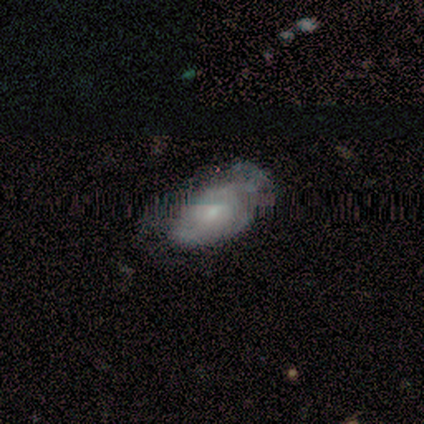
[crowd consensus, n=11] Smooth or featured?
  - featured or disk: 64% *
  - smooth: 27%
  - star or artifact: 9%
Edge-on disk?
  - no: 100% *
  - yes: 0%
Bar?
  - no: 57% *
  - weak: 43%
  - strong: 0%
Spiral arms?
  - yes: 71% *
  - no: 29%
Spiral winding?
  - tight: 40% * (tied)
  - medium: 40% * (tied)
  - loose: 20%
Spiral arm count?
  - can't tell: 60% *
  - 2: 40%
  - 1: 0%
  - 3: 0%
  - 4: 0%
  - more than 4: 0%
Bulge size?
  - small: 71% *
  - moderate: 29%
  - dominant: 0%
  - large: 0%
  - none: 0%
Merging?
  - none: 40% * (tied)
  - minor disturbance: 40% * (tied)
  - major disturbance: 20%
  - merger: 0%